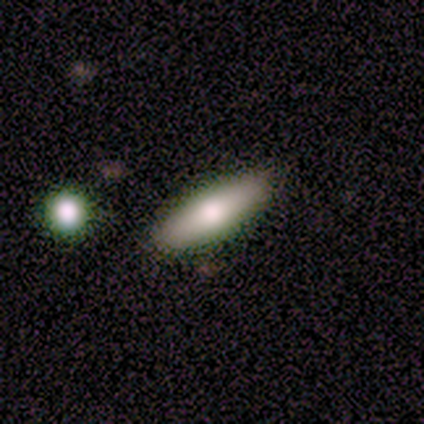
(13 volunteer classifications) This appears to be a smooth galaxy with no disk features (46%) that is cigar-shaped (67%). Merging: none (90%).